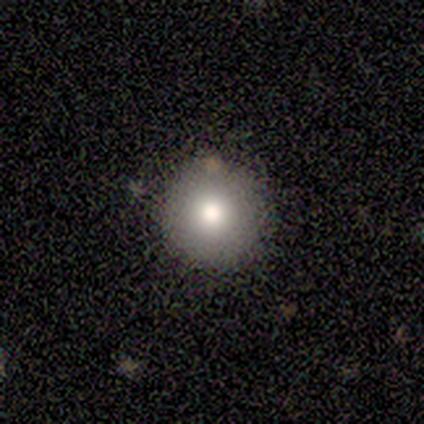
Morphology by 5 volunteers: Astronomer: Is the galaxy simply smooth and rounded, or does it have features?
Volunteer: smooth — 60% (runner-up: star or artifact, 40%).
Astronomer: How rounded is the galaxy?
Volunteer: round — 100%.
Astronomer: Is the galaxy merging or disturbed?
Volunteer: none — 100%.